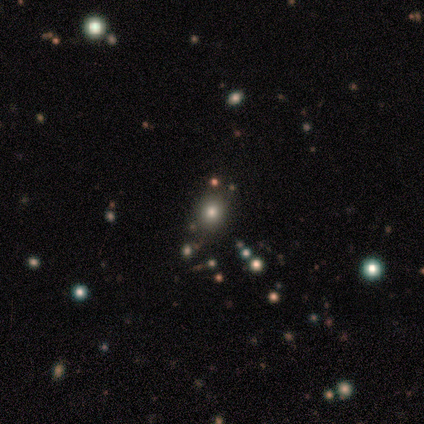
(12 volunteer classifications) Smooth or featured? 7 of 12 (58%) said smooth. How rounded? 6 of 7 (86%) said round. Merging? 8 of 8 (100%) said none.